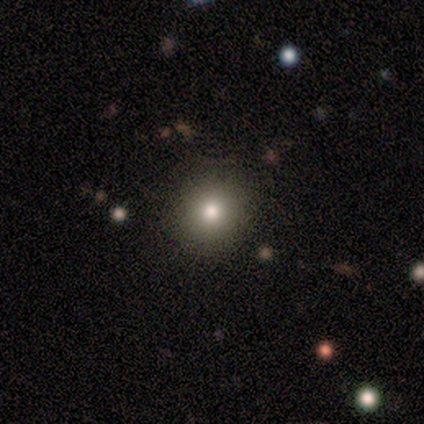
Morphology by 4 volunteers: Smooth or featured: smooth — 100%
How rounded: round — 100%
Merging: none — 75% (minor disturbance — 25%)